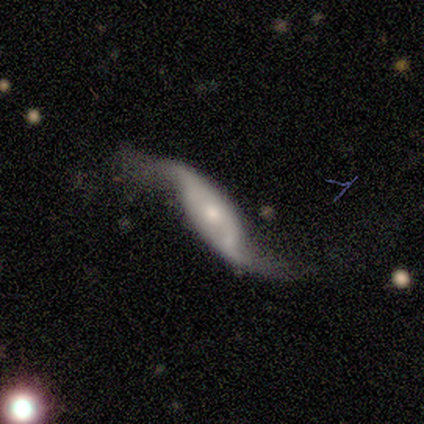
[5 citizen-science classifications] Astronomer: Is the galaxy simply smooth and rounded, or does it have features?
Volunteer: featured or disk — 80%.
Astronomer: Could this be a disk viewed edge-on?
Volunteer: no — 100%.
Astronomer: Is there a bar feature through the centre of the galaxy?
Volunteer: no — 75%.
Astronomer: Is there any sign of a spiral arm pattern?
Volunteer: yes — 100%.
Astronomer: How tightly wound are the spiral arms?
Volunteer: loose — 100%.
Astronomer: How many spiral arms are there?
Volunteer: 2 — 100%.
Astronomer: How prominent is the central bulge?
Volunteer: moderate — 50%, tied with small at 50%.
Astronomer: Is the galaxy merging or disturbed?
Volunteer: none — 60% (runner-up: major disturbance, 40%).